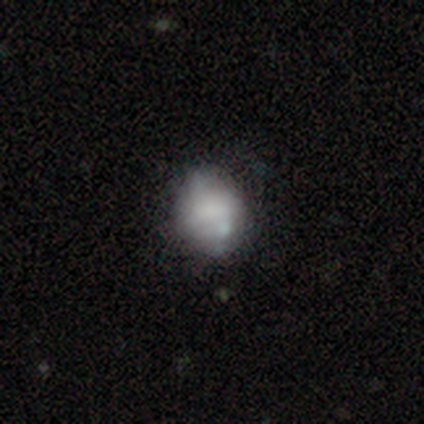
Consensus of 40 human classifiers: Overall: smooth (70%). How rounded: round (71%). Merging: none (51%; minor disturbance 35%).